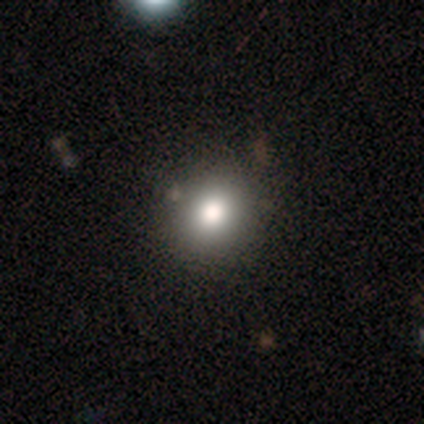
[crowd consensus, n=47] Q: Smooth or featured?
A: smooth (66%); runner-up: star or artifact (23%)
Q: How rounded?
A: round (84%); runner-up: in between (16%)
Q: Merging?
A: none (92%); runner-up: minor disturbance (8%)